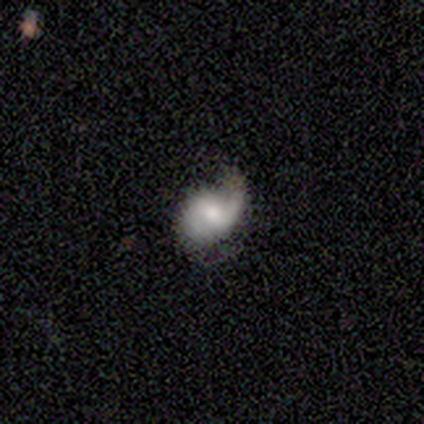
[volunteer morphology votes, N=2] type=featured or disk (100%); edge-on=no (100%); bar=strong (50%, tied with no); spiral arms=yes (50%, tied with no); winding=loose (100%); arm count=can't tell (100%); bulge=small (100%); merging=none (50%, tied with minor disturbance).